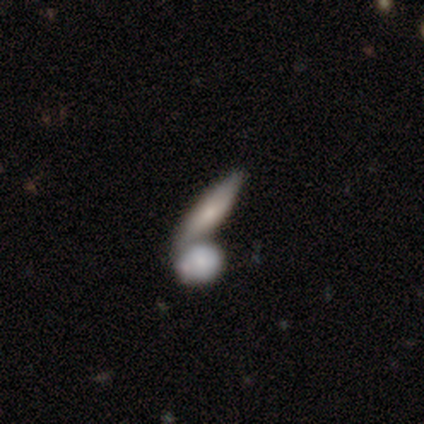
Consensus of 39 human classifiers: A smooth galaxy with no disk features (72%) that is cigar-shaped (57%). Merging: merger (62%).